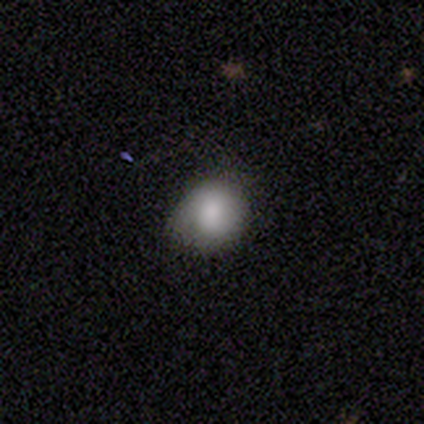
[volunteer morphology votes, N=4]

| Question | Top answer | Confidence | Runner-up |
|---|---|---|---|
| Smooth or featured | smooth | 100% | — |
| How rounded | round | 50% | tied: in between (50%) |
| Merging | none | 75% | minor disturbance (25%) |